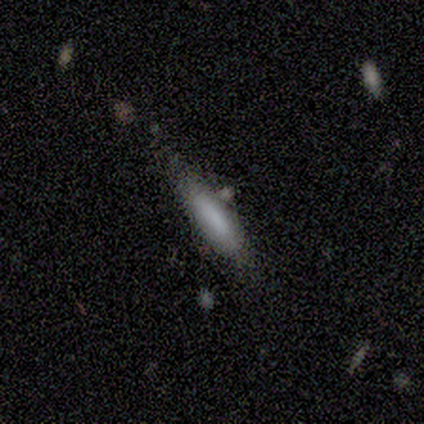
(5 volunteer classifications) This is clearly a smooth galaxy (80%). How rounded: likely cigar-shaped (75%). Merging: clearly none (80%).